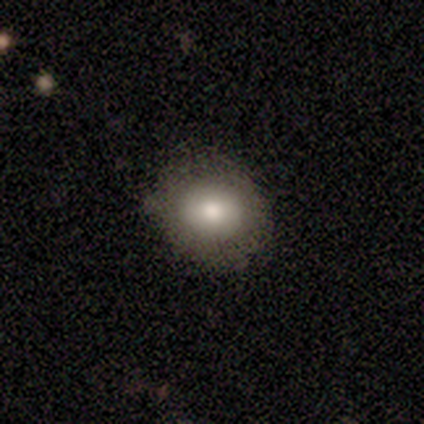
Overall: smooth (50%, tied with featured or disk). How rounded: round (50%, tied with in between). Merging: none (75%).